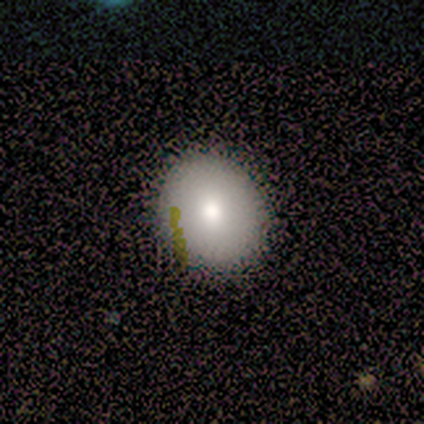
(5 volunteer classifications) smooth-or-featured: smooth: 60% | featured or disk: 20% | star or artifact: 20%
  how-rounded: round: 67% | in between: 33% | cigar-shaped: 0%
  merging: none: 100% | minor disturbance: 0% | major disturbance: 0% | merger: 0%